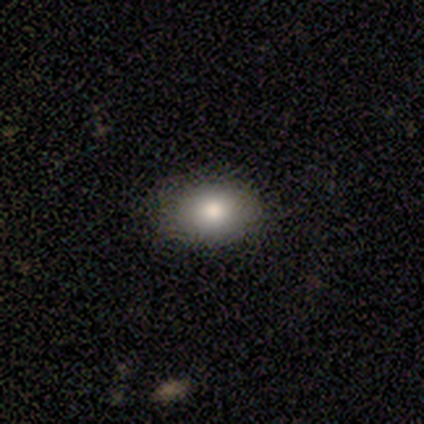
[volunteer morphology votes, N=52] type=smooth (87%); roundness=in between (84%); merging=none (90%).